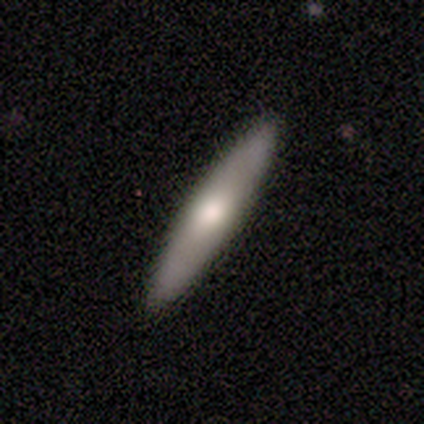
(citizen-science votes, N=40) smooth-or-featured: smooth: 62% | featured or disk: 38% | star or artifact: 0%
  how-rounded: cigar-shaped: 88% | in between: 12% | round: 0%
  merging: none: 98% | minor disturbance: 2% | major disturbance: 0% | merger: 0%